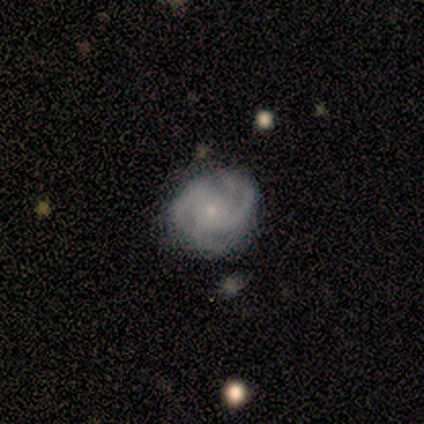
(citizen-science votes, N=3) This appears to be a featured or disk galaxy (67%) with a strong bar (50%, tied with no), 2 (100%) loose (100%) spiral arms (100%) and a small central bulge (100%). Merging: none (100%).